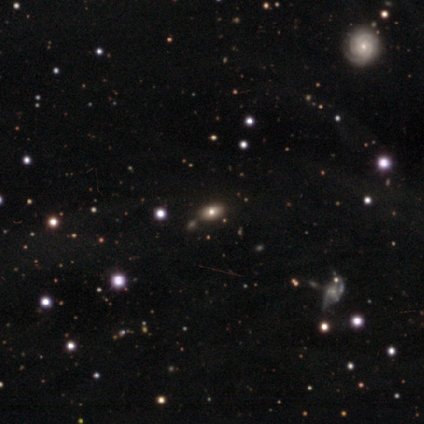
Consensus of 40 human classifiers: A smooth galaxy with no disk features (55%) that is in between round and cigar-shaped (95%).

Vote fractions:
- Smooth or featured? smooth: 55% / star or artifact: 25% / featured or disk: 20%
- How rounded? in between: 95% / round: 5% / cigar-shaped: 0%
- Merging? none: 47% / merger: 20% / minor disturbance: 0% / major disturbance: 0%